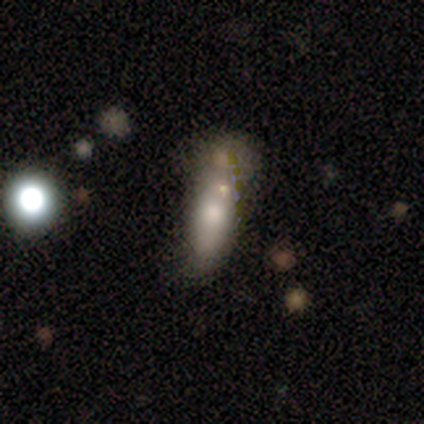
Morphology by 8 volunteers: type=featured or disk (50%); edge-on=yes (50%, tied with no); edge-on bulge=none (50%, tied with rounded); merging=none (43%).